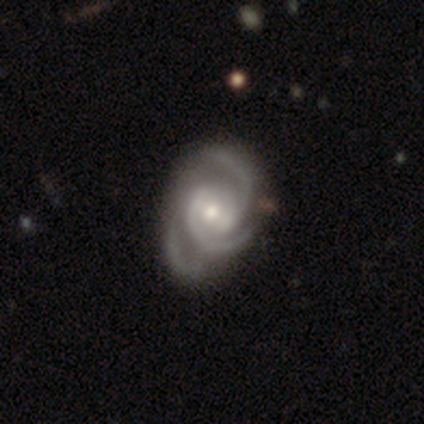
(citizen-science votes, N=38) Smooth or featured? featured or disk (95%)
Edge-on disk? no (97%)
Bar? weak (57%)
Spiral arms? yes (97%)
Spiral winding? medium (53%)
Spiral arm count? 3 (74%)
Bulge size? moderate (57%)
Merging? none (67%)